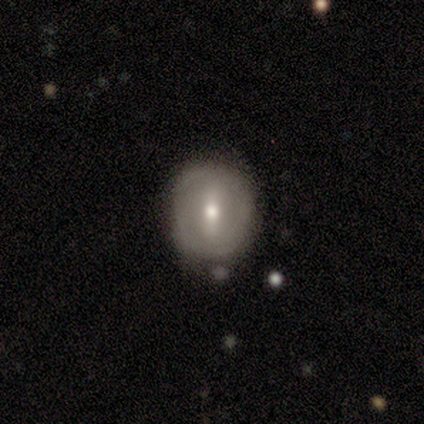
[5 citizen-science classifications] A featured or disk galaxy (60%) with a strong bar (67%), no spiral arms (67%) and a moderate central bulge (67%). Merging: none (40%).